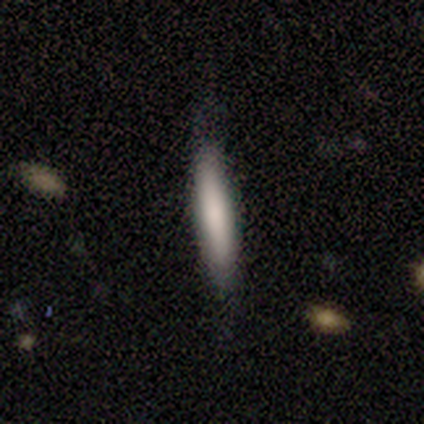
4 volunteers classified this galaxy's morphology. This appears to be a smooth galaxy with no disk features (100%) that is cigar-shaped (75%). Merging: none (100%).